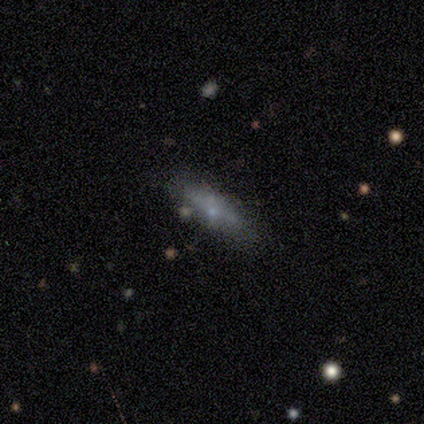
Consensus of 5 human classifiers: Smooth or featured? 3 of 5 (60%) said smooth. How rounded? 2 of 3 (67%) said cigar-shaped. Merging? 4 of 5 (80%) said none.